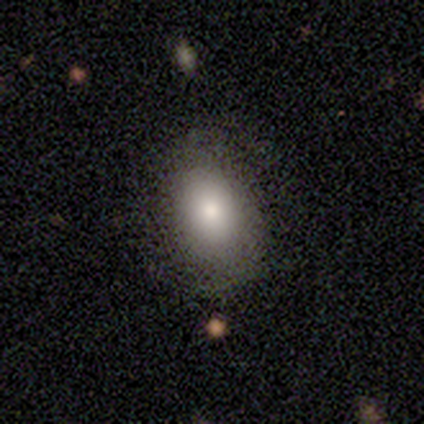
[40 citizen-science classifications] Smooth or featured? 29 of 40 (72%) said smooth. How rounded? 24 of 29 (83%) said in between. Merging? 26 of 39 (67%) said none.